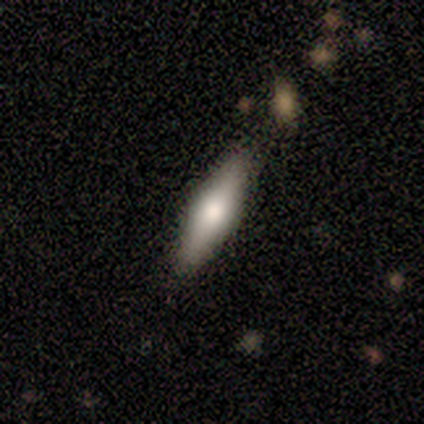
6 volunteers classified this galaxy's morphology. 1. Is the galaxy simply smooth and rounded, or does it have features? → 83% smooth, 17% featured or disk, 0% star or artifact.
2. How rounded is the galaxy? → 80% cigar-shaped, 20% in between, 0% round.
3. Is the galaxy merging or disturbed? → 83% none, 17% minor disturbance, 0% major disturbance, 0% merger.